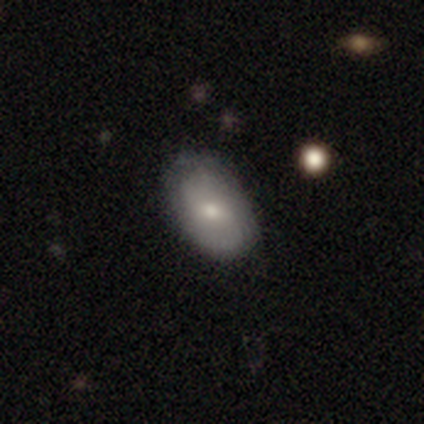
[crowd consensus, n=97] Smooth or featured: smooth — 56% (featured or disk — 35%)
How rounded: in between — 87% (round — 13%)
Merging: none — 75% (minor disturbance — 18%)